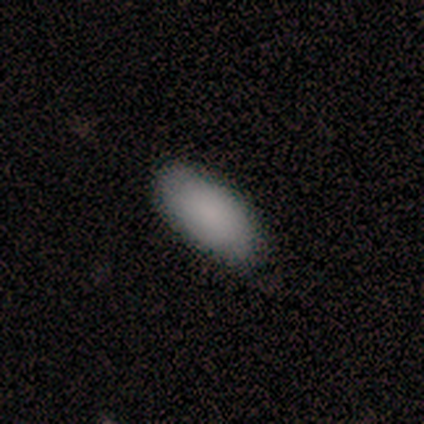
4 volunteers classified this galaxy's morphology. This appears to be a smooth galaxy with no disk features (75%) that is in between round and cigar-shaped (100%). Merging: none (50%, tied with minor disturbance).